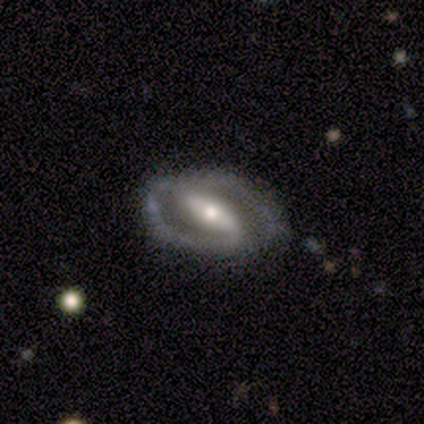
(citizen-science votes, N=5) Q: Smooth or featured?
A: featured or disk (100%)
Q: Edge-on disk?
A: no (80%); runner-up: yes (20%)
Q: Bar?
A: strong (50%); tied with: weak (50%)
Q: Spiral arms?
A: yes (100%)
Q: Spiral winding?
A: medium (75%); runner-up: tight (25%)
Q: Spiral arm count?
A: 2 (100%)
Q: Bulge size?
A: moderate (50%); tied with: small (50%)
Q: Merging?
A: none (100%)